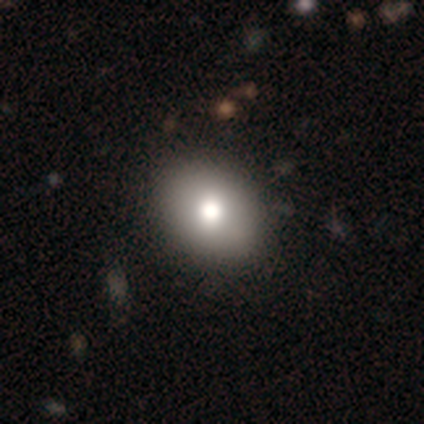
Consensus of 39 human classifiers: Volunteers were most divided on "how rounded": in between: 55%, round: 45%, cigar-shaped: 0%. More confident: smooth or featured — smooth (85%); merging — none (75%).